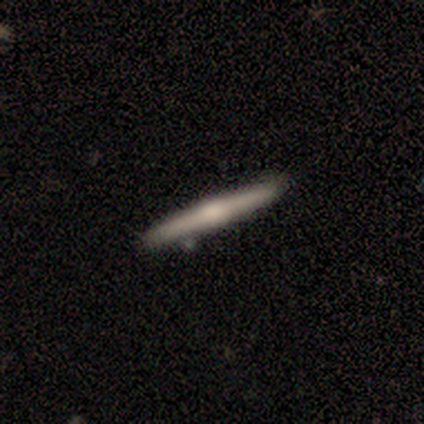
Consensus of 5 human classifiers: This is clearly a featured or disk galaxy (80%). It is clearly viewed edge-on (100%). Edge-on bulge: possibly rounded (50%). Merging: clearly none (80%).